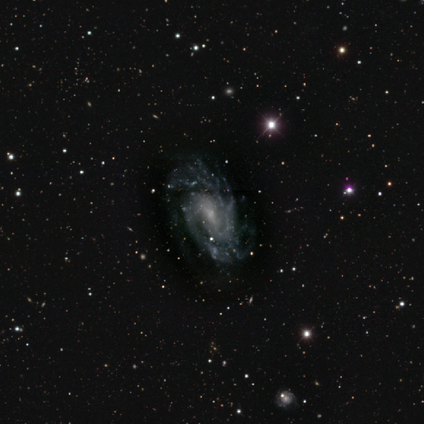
Volunteers were most divided on "bar": no: 48%, weak: 40%, strong: 12%. Remaining: edge-on disk — no (99%); spiral arms — yes (92%); smooth or featured — featured or disk (91%); merging — none (71%); bulge size — small (61%); spiral arm count — 2 (55%); spiral winding — tight (47%).